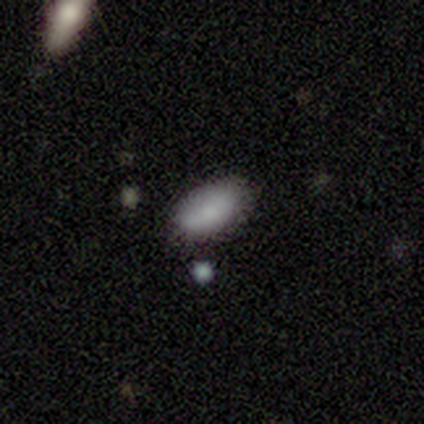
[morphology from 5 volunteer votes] A smooth galaxy with no disk features (80%) that is in between round and cigar-shaped (100%).

Vote fractions:
- Smooth or featured? smooth: 80% / star or artifact: 20% / featured or disk: 0%
- How rounded? in between: 100% / round: 0% / cigar-shaped: 0%
- Merging? none: 50% / minor disturbance: 25% / merger: 25% / major disturbance: 0%